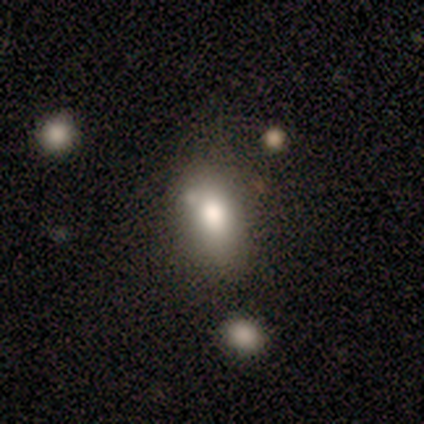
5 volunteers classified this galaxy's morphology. smooth 80%, featured or disk 20%, star or artifact 0%. Down the decision tree: how rounded — in between (75%); merging — major disturbance (40%).